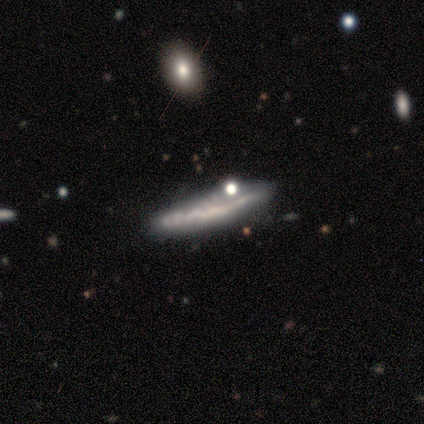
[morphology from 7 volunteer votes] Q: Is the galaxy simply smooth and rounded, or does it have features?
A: featured or disk — 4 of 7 (57%).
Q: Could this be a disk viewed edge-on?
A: yes — 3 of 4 (75%).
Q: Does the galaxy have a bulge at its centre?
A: none — 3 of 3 (100%).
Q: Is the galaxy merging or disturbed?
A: none — 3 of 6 (50%).